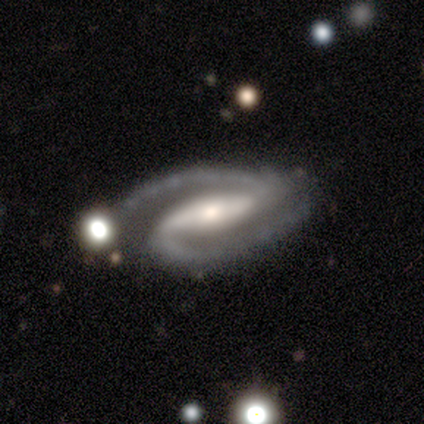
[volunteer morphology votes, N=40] smooth_or_featured: featured or disk (p=0.88) [alt: smooth p=0.10]
disk_edge_on: no (p=0.97) [alt: yes p=0.03]
bar: strong (p=0.76) [alt: weak p=0.18]
has_spiral_arms: yes (p=1.00)
spiral_winding: medium (p=0.68) [alt: tight p=0.18]
spiral_arm_count: 2 (p=0.97) [alt: can't tell p=0.03]
bulge_size: small (p=0.41) [alt: moderate p=0.38]
merging: none (p=0.72) [alt: minor disturbance p=0.26]